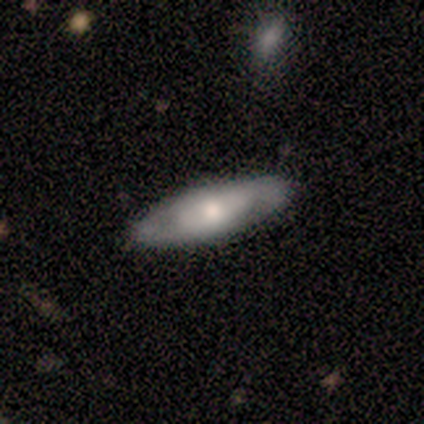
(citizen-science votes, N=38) Q: Smooth or featured?
A: featured or disk (58%); runner-up: smooth (37%)
Q: Edge-on disk?
A: no (77%); runner-up: yes (23%)
Q: Bar?
A: no (82%); runner-up: weak (12%)
Q: Spiral arms?
A: yes (53%); runner-up: no (47%)
Q: Spiral winding?
A: tight (56%); runner-up: medium (22%)
Q: Spiral arm count?
A: 2 (78%); runner-up: can't tell (22%)
Q: Bulge size?
A: moderate (47%); runner-up: small (41%)
Q: Merging?
A: none (81%); runner-up: minor disturbance (14%)